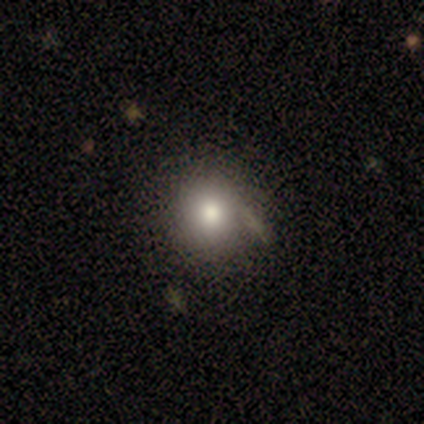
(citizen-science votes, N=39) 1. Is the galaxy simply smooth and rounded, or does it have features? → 85% smooth, 8% featured or disk, 8% star or artifact.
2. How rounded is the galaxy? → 88% round, 12% in between, 0% cigar-shaped.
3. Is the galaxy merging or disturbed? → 50% none, 14% merger, 8% minor disturbance, 3% major disturbance.